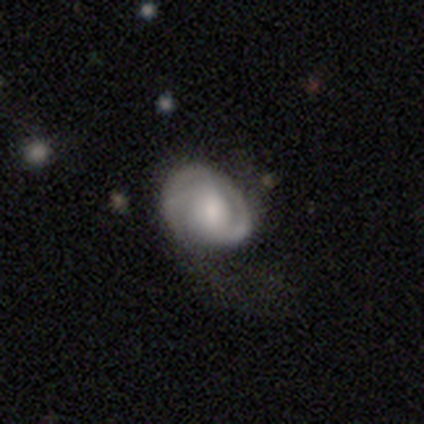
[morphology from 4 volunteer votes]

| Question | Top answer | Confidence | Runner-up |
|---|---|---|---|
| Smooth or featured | smooth | 50% | tied: featured or disk (50%) |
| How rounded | round | 50% | tied: in between (50%) |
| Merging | major disturbance | 50% | none (25%) |